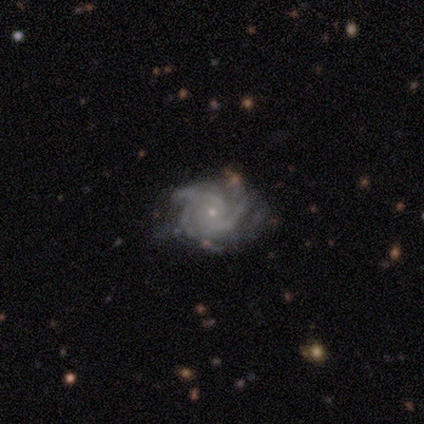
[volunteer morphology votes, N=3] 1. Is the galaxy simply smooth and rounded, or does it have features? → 100% featured or disk, 0% smooth, 0% star or artifact.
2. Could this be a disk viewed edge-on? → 100% no, 0% yes.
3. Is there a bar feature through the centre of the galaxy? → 67% no, 33% weak, 0% strong.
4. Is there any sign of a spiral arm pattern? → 100% yes, 0% no.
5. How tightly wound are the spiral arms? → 100% tight, 0% medium, 0% loose.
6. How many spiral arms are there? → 67% 2, 33% 3, 0% 1, 0% 4, 0% more than 4, 0% can't tell.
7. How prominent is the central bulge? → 67% small, 33% moderate, 0% dominant, 0% large, 0% none.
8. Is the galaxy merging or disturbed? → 100% none, 0% minor disturbance, 0% major disturbance, 0% merger.